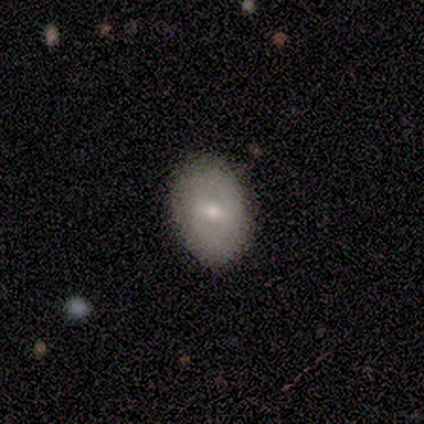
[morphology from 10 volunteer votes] Overall: smooth (70%). How rounded: in between (86%). Merging: none (67%; minor disturbance 33%).